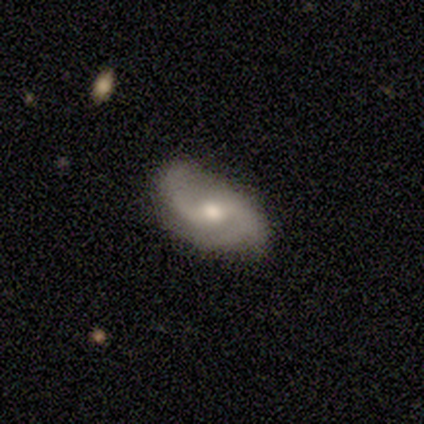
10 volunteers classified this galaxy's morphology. This is likely a featured or disk galaxy (70%). It is clearly not viewed edge-on (100%). Bar: likely weak (71%). Spiral arm pattern: clearly yes (100%). Spiral arm count: clearly 2 (100%). Spiral winding: likely loose (71%). Central bulge: clearly moderate (86%). Merging: clearly none (80%).